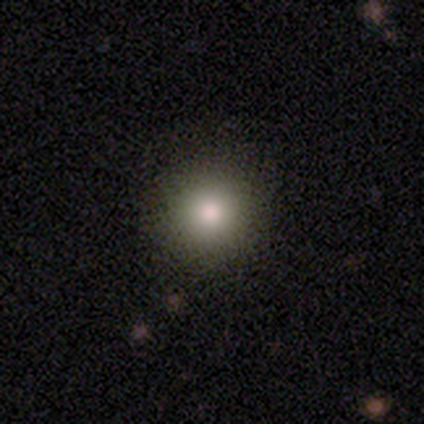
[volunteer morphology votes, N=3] A smooth galaxy with no disk features (100%) that is round (100%). Merging: none (100%).